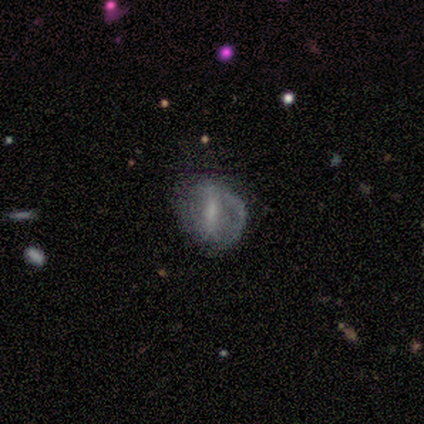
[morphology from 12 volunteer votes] smooth_or_featured: featured or disk (p=0.67) [alt: smooth p=0.17]
disk_edge_on: no (p=1.00)
bar: strong (p=0.62) [alt: no p=0.25]
has_spiral_arms: yes (p=0.62) [alt: no p=0.38]
spiral_winding: medium (p=0.40) [tied with: loose p=0.40]
spiral_arm_count: 1 (p=0.60) [alt: 2 p=0.20]
bulge_size: small (p=1.00)
merging: none (p=0.70) [alt: major disturbance p=0.20]